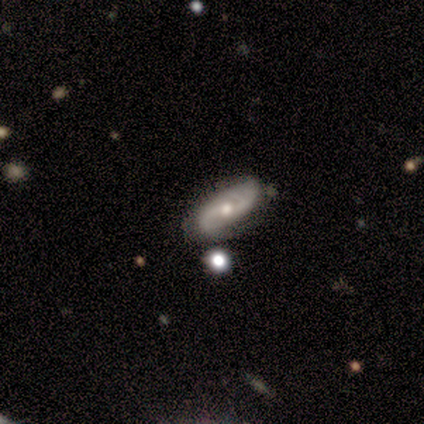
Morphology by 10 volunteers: Volunteers were most divided on "merging" (2-way tie): none: 50%, minor disturbance: 50%, major disturbance: 0%, merger: 0%. Remaining: spiral arms — yes (100%); edge-on disk — no (88%); spiral arm count — 2 (86%); smooth or featured — featured or disk (80%); bulge size — small (57%); bar — weak (57%); spiral winding — medium (43%).